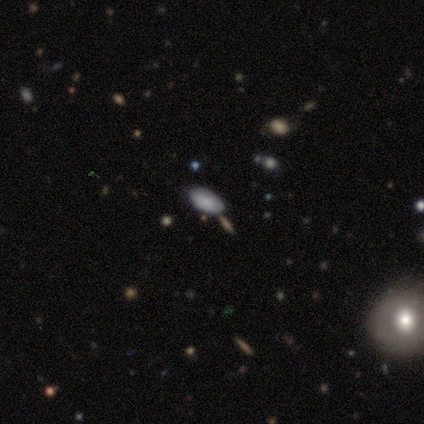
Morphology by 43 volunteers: smooth 74%, featured or disk 16%, star or artifact 9%. Down the decision tree: how rounded — in between (94%); merging — none (79%).